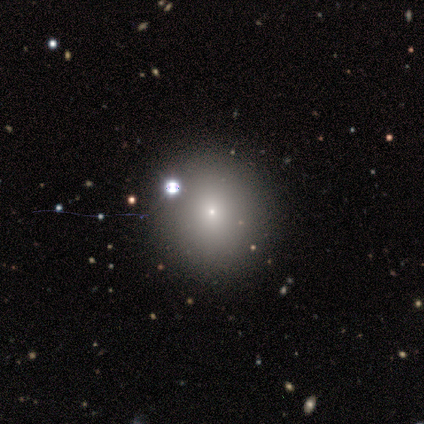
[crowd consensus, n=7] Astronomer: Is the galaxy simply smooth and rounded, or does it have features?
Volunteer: smooth — 43% (runner-up: featured or disk, 29%).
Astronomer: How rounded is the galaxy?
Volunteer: round — 100%.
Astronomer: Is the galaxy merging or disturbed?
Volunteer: none — 60%.